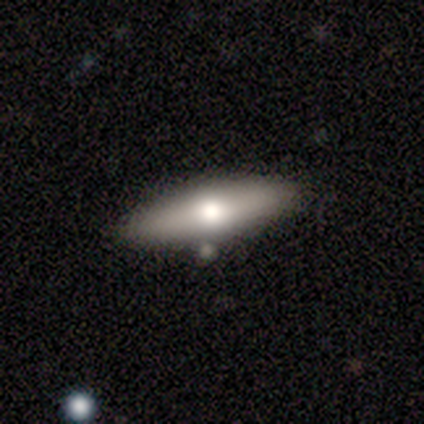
Morphology: type=smooth (69%); roundness=cigar-shaped (67%); merging=none (100%).